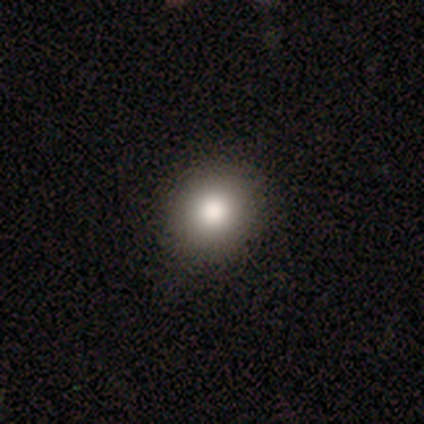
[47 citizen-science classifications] A smooth galaxy with no disk features (91%) that is round (79%). Merging: none (78%).